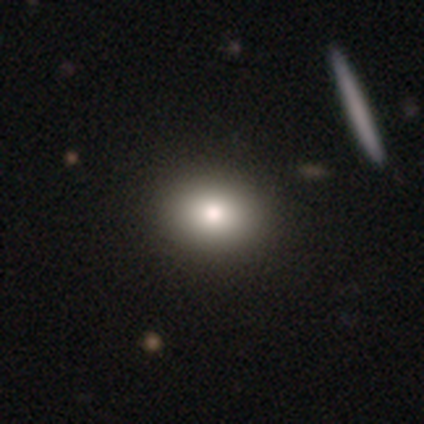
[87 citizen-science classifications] Smooth or featured?
  - smooth: 78% *
  - featured or disk: 11%
  - star or artifact: 10%
How rounded?
  - round: 57% *
  - in between: 43%
  - cigar-shaped: 0%
Merging?
  - none: 88% *
  - minor disturbance: 6%
  - major disturbance: 4%
  - merger: 1%